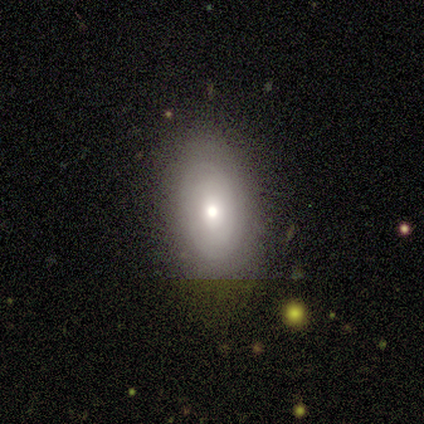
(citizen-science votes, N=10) This is likely a featured or disk galaxy (60%). It is clearly not viewed edge-on (100%). Bar: clearly no (83%). Spiral arm pattern: possibly yes (50%, tied with no). Spiral arm count: marginally 1 (33%, tied with 2 and can't tell). Spiral winding: clearly tight (100%). Central bulge: clearly moderate (83%). Merging: clearly none (80%).